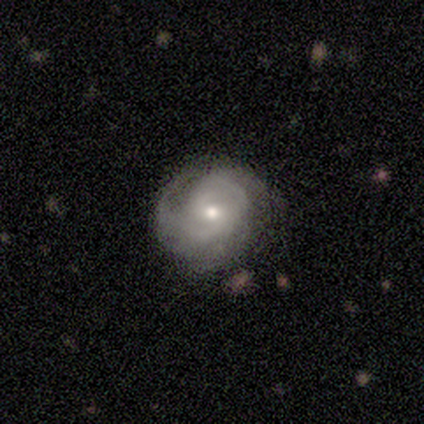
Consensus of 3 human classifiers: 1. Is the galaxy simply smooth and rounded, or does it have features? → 100% featured or disk, 0% smooth, 0% star or artifact.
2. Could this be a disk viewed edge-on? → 100% no, 0% yes.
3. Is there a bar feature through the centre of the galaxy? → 100% no, 0% strong, 0% weak.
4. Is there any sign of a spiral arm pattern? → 100% yes, 0% no.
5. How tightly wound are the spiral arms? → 67% tight, 33% medium, 0% loose.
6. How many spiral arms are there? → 67% 2, 33% 3, 0% 1, 0% 4, 0% more than 4, 0% can't tell.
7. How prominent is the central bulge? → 100% moderate, 0% dominant, 0% large, 0% small, 0% none.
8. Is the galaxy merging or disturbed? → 100% none, 0% minor disturbance, 0% major disturbance, 0% merger.